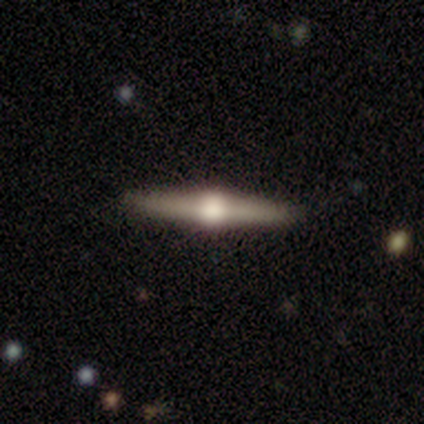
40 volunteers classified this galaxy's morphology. Smooth or featured?
  - featured or disk: 85% *
  - smooth: 15%
  - star or artifact: 0%
Edge-on disk?
  - yes: 100% *
  - no: 0%
Edge-on bulge?
  - rounded: 97% *
  - boxy: 3%
  - none: 0%
Merging?
  - none: 92% *
  - minor disturbance: 5%
  - major disturbance: 2%
  - merger: 0%